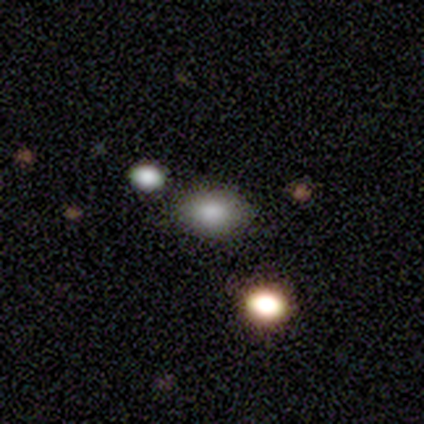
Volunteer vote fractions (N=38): smooth-or-featured: smooth: 82% | star or artifact: 11% | featured or disk: 8%
  how-rounded: in between: 81% | round: 19% | cigar-shaped: 0%
  merging: none: 85% | minor disturbance: 12% | merger: 3% | major disturbance: 0%